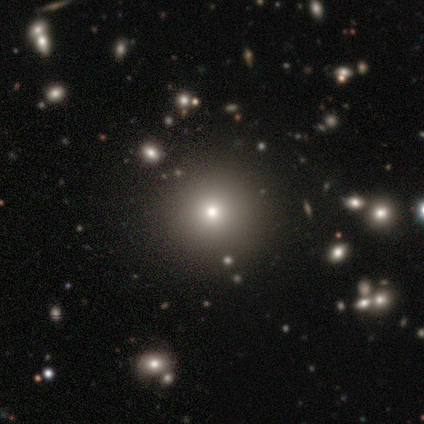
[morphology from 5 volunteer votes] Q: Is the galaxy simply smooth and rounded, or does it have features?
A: smooth — 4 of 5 (80%).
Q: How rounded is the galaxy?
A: round — 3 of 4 (75%).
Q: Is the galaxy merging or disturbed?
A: none — 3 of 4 (75%).